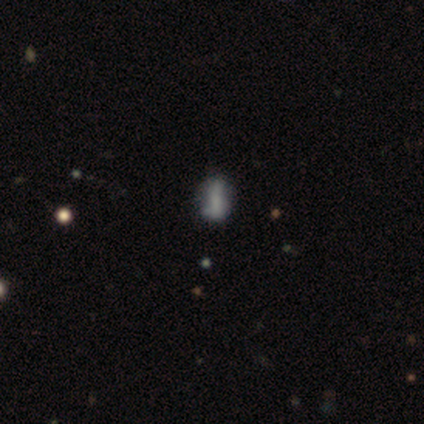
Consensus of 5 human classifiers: smooth 80%, featured or disk 20%, star or artifact 0%. Down the decision tree: how rounded — in between (75%); merging — none (60%).